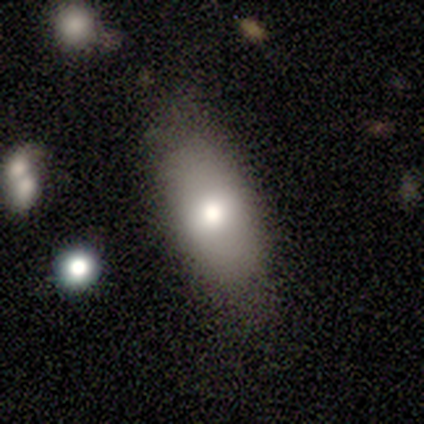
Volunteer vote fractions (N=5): smooth 80%, star or artifact 20%, featured or disk 0%. Down the decision tree: how rounded — in between (100%); merging — none (100%).